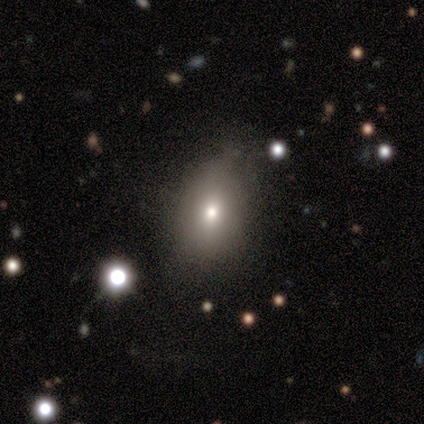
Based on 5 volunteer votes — Smooth or featured: smooth — 60% (featured or disk — 20%)
How rounded: in between — 100%
Merging: none — 75% (minor disturbance — 25%)